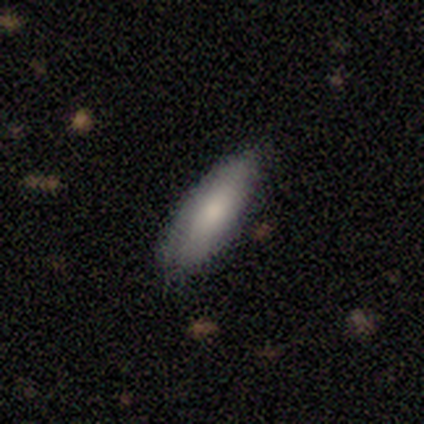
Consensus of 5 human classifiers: smooth 100%, featured or disk 0%, star or artifact 0%. Down the decision tree: how rounded — in between (60%); merging — none (100%).